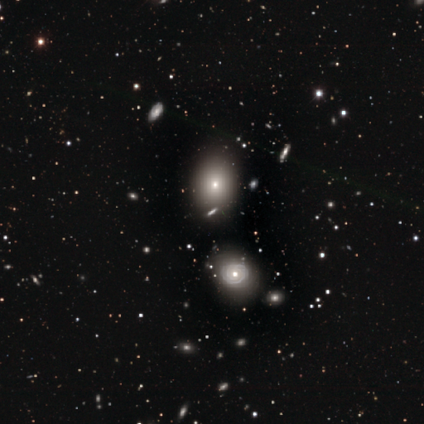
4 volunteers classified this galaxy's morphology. Volunteers were most divided on "how rounded": round: 50%, in between: 25%, cigar-shaped: 25%. More confident: smooth or featured — smooth (100%); merging — none (100%).